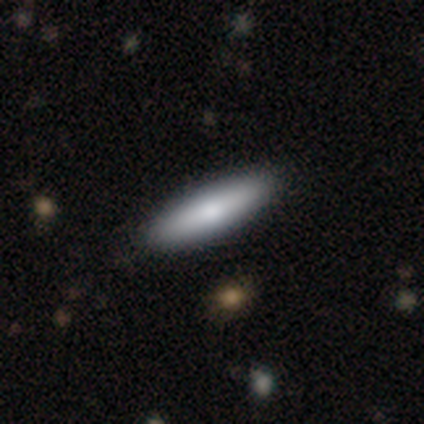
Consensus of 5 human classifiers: smooth-or-featured: smooth: 60% | featured or disk: 40% | star or artifact: 0%
  how-rounded: cigar-shaped: 67% | in between: 33% | round: 0%
  merging: none: 80% | minor disturbance: 20% | major disturbance: 0% | merger: 0%